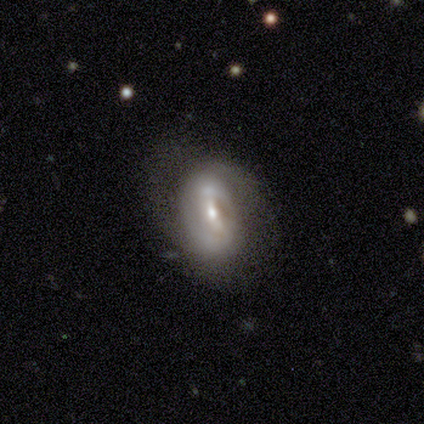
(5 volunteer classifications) Overall: featured or disk (80%). Edge-on disk: no (100%). Bar: strong (50%, tied with weak). Spiral arms: yes (100%). Spiral arm count: 2 (75%). Spiral winding: medium (100%). Bulge size: moderate (50%; dominant 25%). Merging: none (50%; minor disturbance 25%).